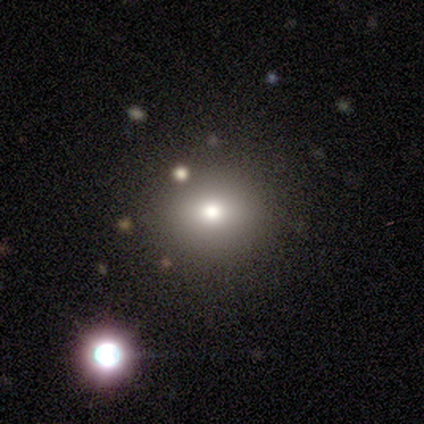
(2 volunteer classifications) Consensus on every question: smooth or featured — star or artifact (100%).